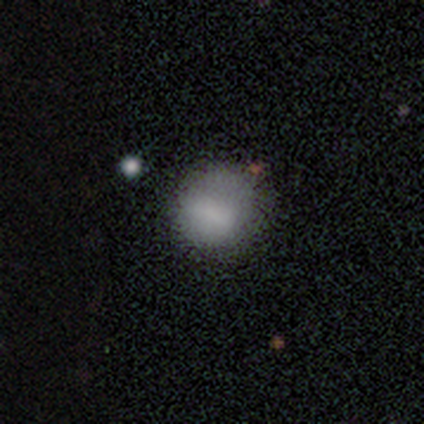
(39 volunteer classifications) smooth_or_featured: smooth (p=0.92) [alt: featured or disk p=0.08]
how_rounded: round (p=0.75) [alt: in between p=0.25]
merging: none (p=0.62) [alt: minor disturbance p=0.10]